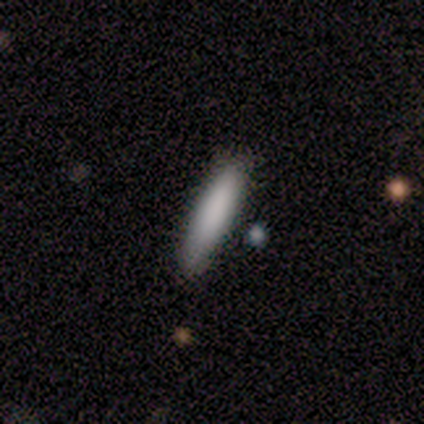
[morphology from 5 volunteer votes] type=smooth (60%); roundness=cigar-shaped (100%); merging=none (100%).